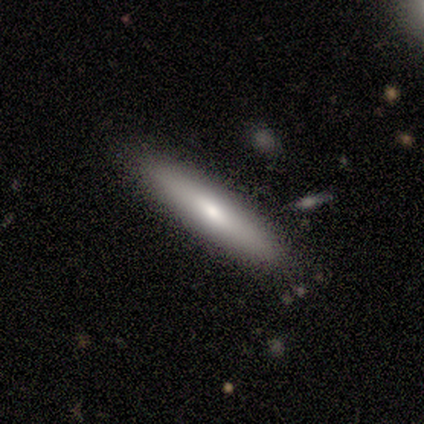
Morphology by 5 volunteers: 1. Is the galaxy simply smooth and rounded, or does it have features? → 60% featured or disk, 40% smooth, 0% star or artifact.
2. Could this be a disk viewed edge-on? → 100% yes, 0% no.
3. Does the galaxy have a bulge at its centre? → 67% none, 33% rounded, 0% boxy.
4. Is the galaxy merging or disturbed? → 80% none, 20% merger, 0% minor disturbance, 0% major disturbance.